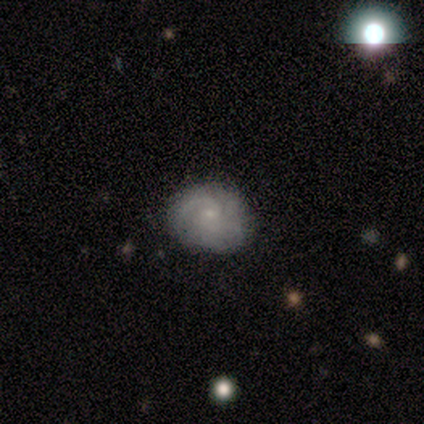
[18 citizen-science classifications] Morphology: type=featured or disk (72%); edge-on=no (92%); bar=no (92%); spiral arms=yes (92%); winding=medium (64%); arm count=2 (45%); bulge=small (83%); merging=none (88%).